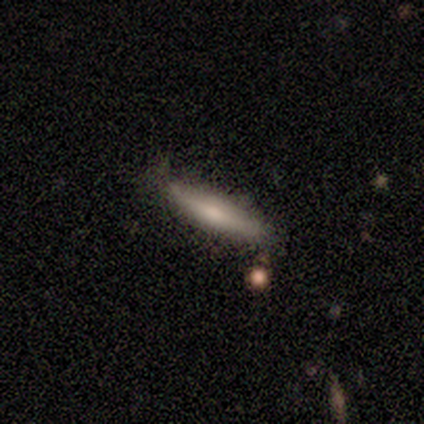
A featured or disk galaxy (67%) viewed edge-on (100%) with a rounded central bulge (75%).

Vote fractions:
- Smooth or featured? featured or disk: 67% / smooth: 33% / star or artifact: 0%
- Edge-on disk? yes: 100% / no: 0%
- Edge-on bulge? rounded: 75% / none: 25% / boxy: 0%
- Merging? none: 100% / minor disturbance: 0% / major disturbance: 0% / merger: 0%